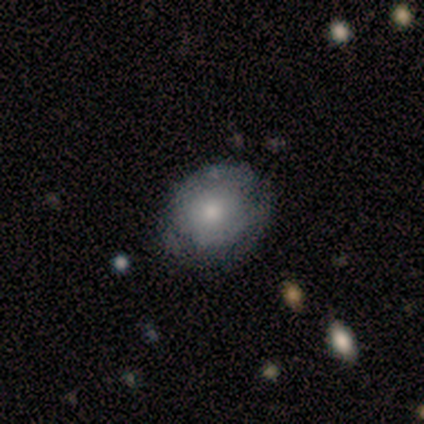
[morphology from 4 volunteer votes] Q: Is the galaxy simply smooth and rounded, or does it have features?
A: smooth — 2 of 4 (50%, tied with featured or disk).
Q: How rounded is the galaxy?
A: round — 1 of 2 (50%, tied with in between).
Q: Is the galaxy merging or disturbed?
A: none — 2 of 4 (50%, tied with minor disturbance).